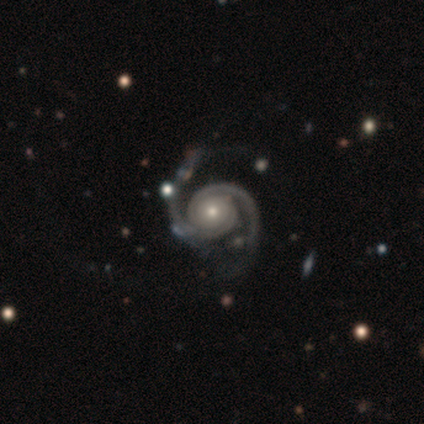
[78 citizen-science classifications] Volunteers were most divided on "bulge size": moderate: 51%, small: 47%, large: 3%, dominant: 0%, none: 0%. Remaining: spiral arms — yes (99%); spiral arm count — 2 (99%); edge-on disk — no (97%); smooth or featured — featured or disk (96%); bar — no (84%); spiral winding — tight (57%); merging — none (35%).